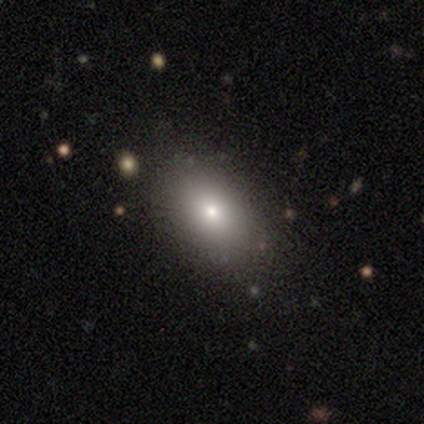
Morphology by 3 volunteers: A smooth galaxy with no disk features (67%) that is round (50%, tied with in between). Merging: none (100%).